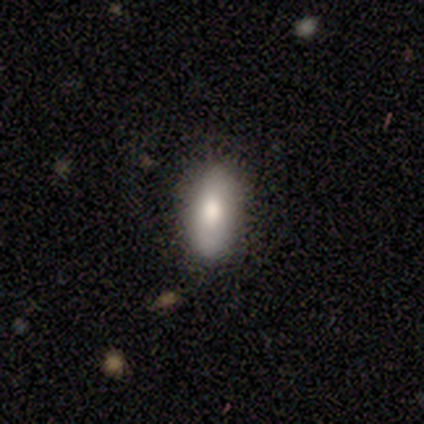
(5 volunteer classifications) Smooth or featured? smooth (80%)
How rounded? in between (75%)
Merging? none (100%)